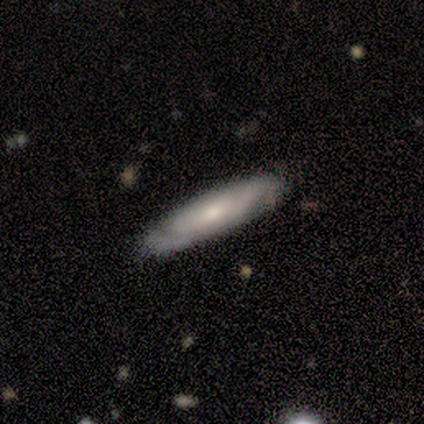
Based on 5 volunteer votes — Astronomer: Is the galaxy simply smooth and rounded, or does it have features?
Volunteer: featured or disk — 80%.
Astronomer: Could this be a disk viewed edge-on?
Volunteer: yes — 75%.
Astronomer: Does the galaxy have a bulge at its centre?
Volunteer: none — 67%.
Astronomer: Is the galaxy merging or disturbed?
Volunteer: none — 75%.